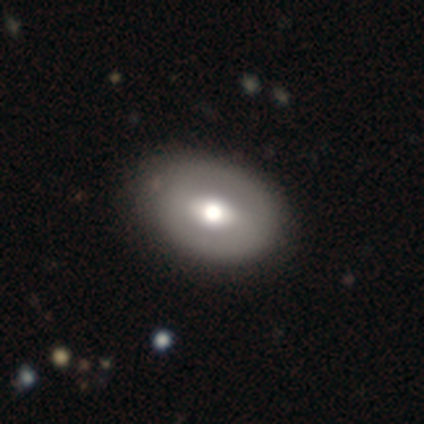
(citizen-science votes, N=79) Morphology: type=smooth (68%); roundness=in between (80%); merging=none (36%).